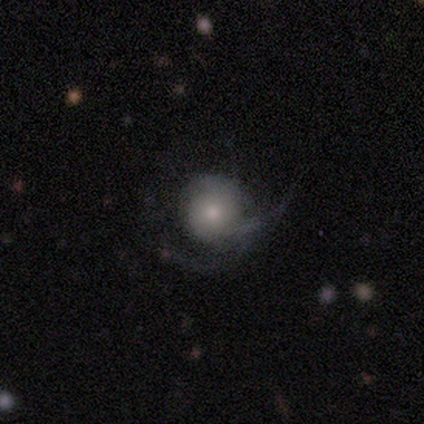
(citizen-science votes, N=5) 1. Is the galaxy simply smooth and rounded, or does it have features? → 80% featured or disk, 20% star or artifact, 0% smooth.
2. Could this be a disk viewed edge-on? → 100% no, 0% yes.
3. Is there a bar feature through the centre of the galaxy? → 100% no, 0% strong, 0% weak.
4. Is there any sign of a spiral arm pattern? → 100% yes, 0% no.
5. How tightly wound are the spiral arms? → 50% medium, 25% tight, 25% loose.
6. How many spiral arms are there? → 50% can't tell, 25% 1, 25% 2, 0% 3, 0% 4, 0% more than 4.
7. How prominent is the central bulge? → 50% moderate, 25% large, 25% small, 0% dominant, 0% none.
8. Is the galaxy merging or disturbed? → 75% major disturbance, 25% minor disturbance, 0% none, 0% merger.